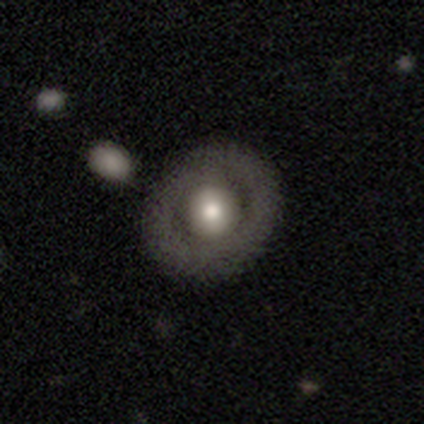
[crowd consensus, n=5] Morphology: type=smooth (80%); roundness=round (100%); merging=none (80%).